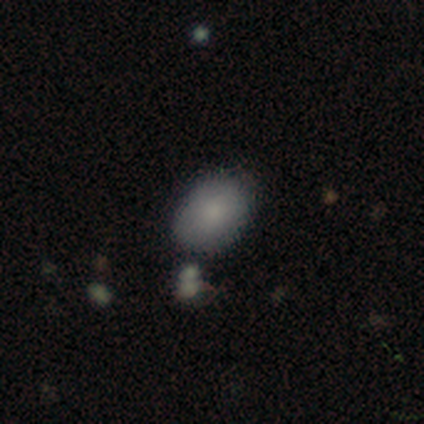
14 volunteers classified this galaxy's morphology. Q: Smooth or featured?
A: smooth (93%); runner-up: featured or disk (7%)
Q: How rounded?
A: in between (77%); runner-up: round (23%)
Q: Merging?
A: none (71%); runner-up: minor disturbance (29%)